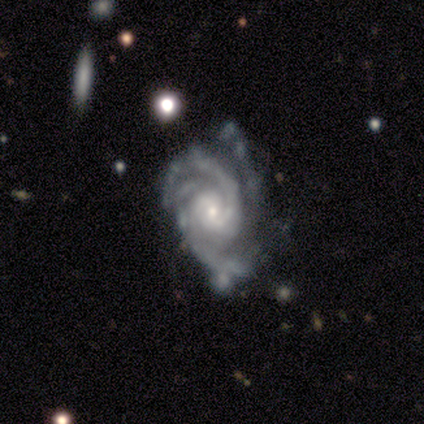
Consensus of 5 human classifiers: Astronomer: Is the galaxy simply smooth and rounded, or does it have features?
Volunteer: featured or disk — 100%.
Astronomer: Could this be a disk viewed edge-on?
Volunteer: no — 100%.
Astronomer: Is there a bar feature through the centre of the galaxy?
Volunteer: no — 100%.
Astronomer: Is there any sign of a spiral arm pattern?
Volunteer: yes — 100%.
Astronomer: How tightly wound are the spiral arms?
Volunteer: tight — 60% (runner-up: medium, 40%).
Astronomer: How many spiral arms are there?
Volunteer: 2 — 40% (runner-up: 3, 20%).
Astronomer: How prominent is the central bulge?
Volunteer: small — 60% (runner-up: moderate, 40%).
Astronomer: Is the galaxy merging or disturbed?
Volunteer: none — 100%.